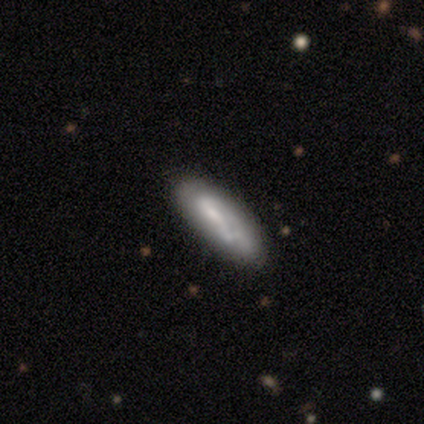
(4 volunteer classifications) smooth-or-featured: smooth: 75% | featured or disk: 25% | star or artifact: 0%
  how-rounded: cigar-shaped: 67% | in between: 33% | round: 0%
  merging: none: 100% | minor disturbance: 0% | major disturbance: 0% | merger: 0%